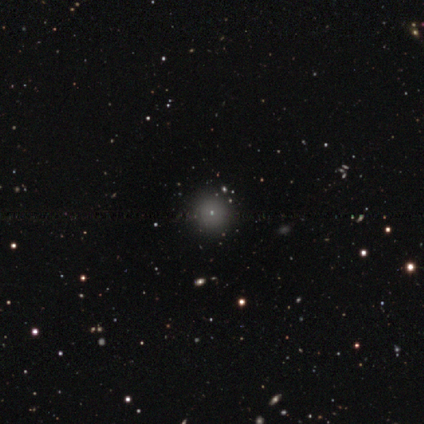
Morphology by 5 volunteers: Volunteers were most divided on "smooth or featured": smooth: 80%, star or artifact: 20%, featured or disk: 0%. More confident: how rounded — round (100%); merging — none (100%).